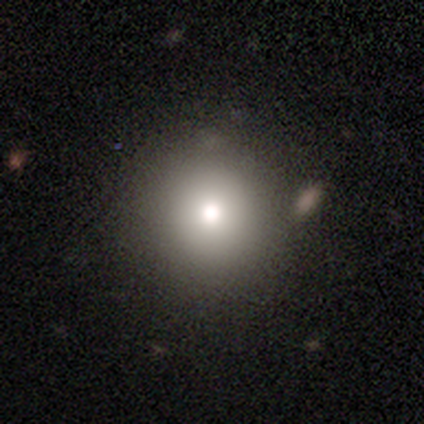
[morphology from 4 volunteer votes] Overall: smooth (50%, tied with featured or disk). How rounded: round (100%). Merging: none (100%).